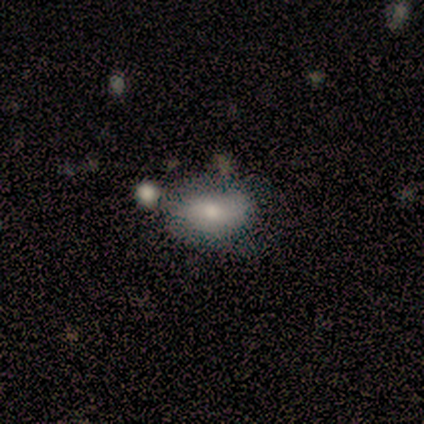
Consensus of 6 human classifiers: Overall: smooth (67%; featured or disk 33%). How rounded: in between (100%). Merging: none (50%; minor disturbance 33%).